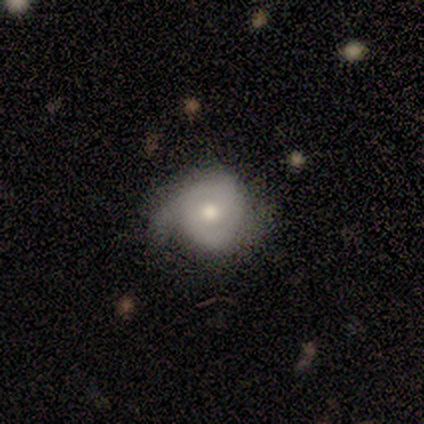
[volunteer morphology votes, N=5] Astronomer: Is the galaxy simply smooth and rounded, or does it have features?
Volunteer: featured or disk — 100%.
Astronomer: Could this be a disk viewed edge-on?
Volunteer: no — 100%.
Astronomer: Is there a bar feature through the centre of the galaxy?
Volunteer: no — 60%.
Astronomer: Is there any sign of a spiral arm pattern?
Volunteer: yes — 100%.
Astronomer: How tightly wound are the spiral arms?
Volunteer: tight — 60%.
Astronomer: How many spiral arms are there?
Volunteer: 2 — 100%.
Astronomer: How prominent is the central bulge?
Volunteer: moderate — 80%.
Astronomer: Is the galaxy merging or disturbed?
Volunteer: none — 60%.